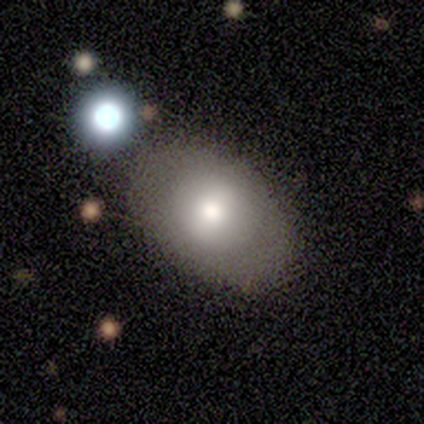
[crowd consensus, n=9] Volunteers were most divided on "merging": none: 78%, minor disturbance: 22%, major disturbance: 0%, merger: 0%. More confident: smooth or featured — smooth (100%); how rounded — in between (78%).